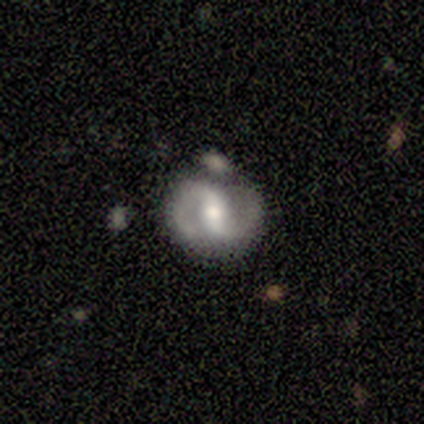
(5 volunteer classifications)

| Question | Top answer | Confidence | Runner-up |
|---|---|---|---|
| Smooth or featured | smooth | 40% | tied: featured or disk (40%) |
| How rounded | round | 100% | — |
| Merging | minor disturbance | 75% | none (25%) |